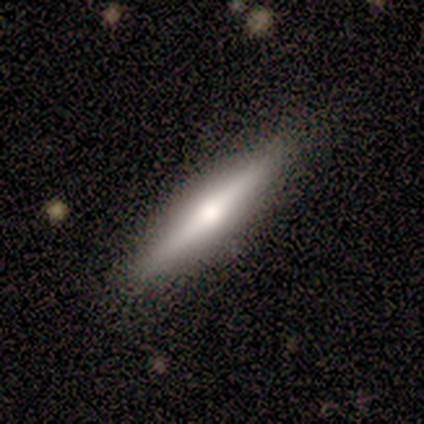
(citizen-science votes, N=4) A smooth galaxy with no disk features (50%, tied with featured or disk) that is in between round and cigar-shaped (100%).

Vote fractions:
- Smooth or featured? smooth: 50% (tied) / featured or disk: 50% (tied) / star or artifact: 0%
- How rounded? in between: 100% / round: 0% / cigar-shaped: 0%
- Merging? none: 100% / minor disturbance: 0% / major disturbance: 0% / merger: 0%